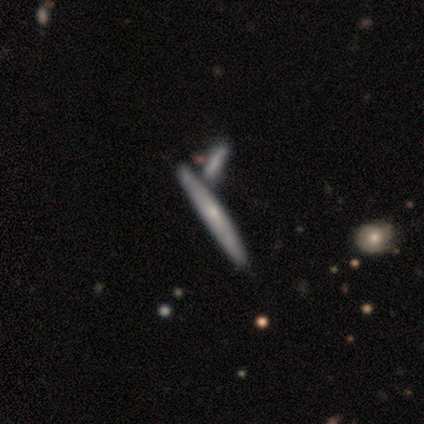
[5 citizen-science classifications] A featured or disk galaxy (60%) viewed edge-on (100%) with no central bulge (67%).

Vote fractions:
- Smooth or featured? featured or disk: 60% / smooth: 40% / star or artifact: 0%
- Edge-on disk? yes: 100% / no: 0%
- Edge-on bulge? none: 67% / rounded: 33% / boxy: 0%
- Merging? none: 60% / minor disturbance: 20% / merger: 20% / major disturbance: 0%